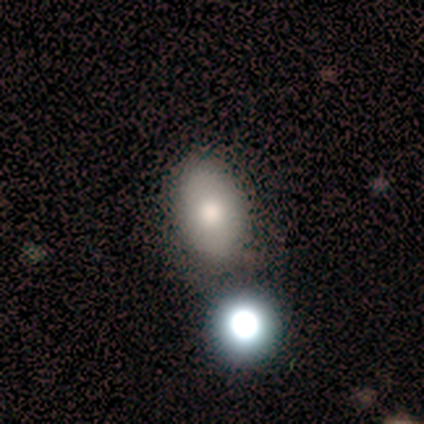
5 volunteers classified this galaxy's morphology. A smooth galaxy with no disk features (60%) that is in between round and cigar-shaped (67%).

Vote fractions:
- Smooth or featured? smooth: 60% / featured or disk: 20% / star or artifact: 20%
- How rounded? in between: 67% / round: 33% / cigar-shaped: 0%
- Merging? none: 75% / merger: 25% / minor disturbance: 0% / major disturbance: 0%